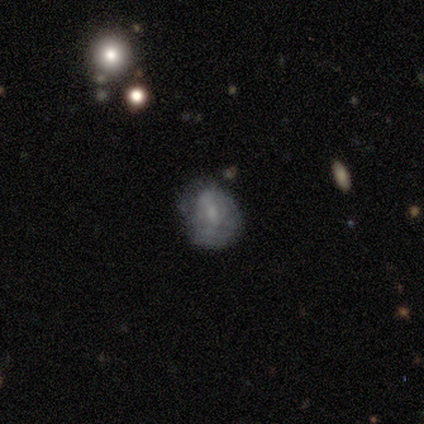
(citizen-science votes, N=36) A featured or disk galaxy (47%) with no bar (53%), no spiral arms (53%) and a small central bulge (59%).

Vote fractions:
- Smooth or featured? featured or disk: 47% / smooth: 39% / star or artifact: 14%
- Edge-on disk? no: 100% / yes: 0%
- Bar? no: 53% / weak: 41% / strong: 6%
- Spiral arms? no: 53% / yes: 47%
- Bulge size? small: 59% / none: 24% / moderate: 18% / dominant: 0% / large: 0%
- Merging? none: 45% / minor disturbance: 42% / major disturbance: 13% / merger: 0%